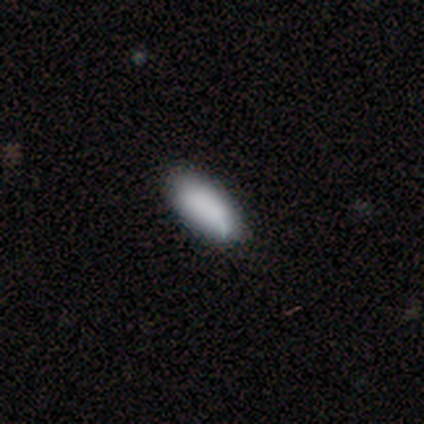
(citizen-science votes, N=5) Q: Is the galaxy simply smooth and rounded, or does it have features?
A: smooth — 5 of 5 (100%).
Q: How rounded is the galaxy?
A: in between — 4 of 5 (80%).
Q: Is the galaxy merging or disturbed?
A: none — 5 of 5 (100%).